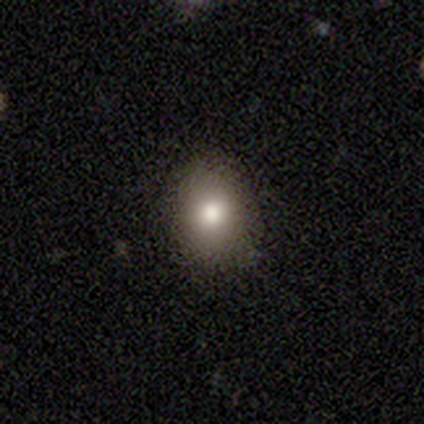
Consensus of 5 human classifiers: Q: Smooth or featured?
A: smooth (100%)
Q: How rounded?
A: in between (60%); runner-up: round (40%)
Q: Merging?
A: none (100%)